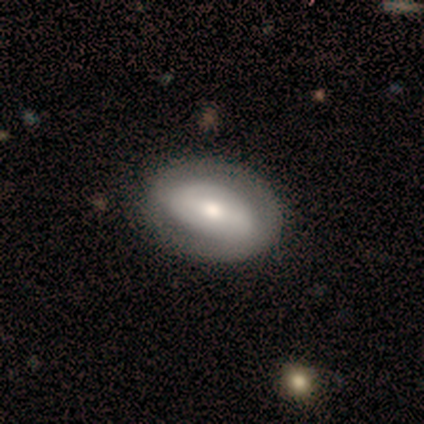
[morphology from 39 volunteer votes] A smooth galaxy with no disk features (64%) that is in between round and cigar-shaped (92%). Merging: none (84%).